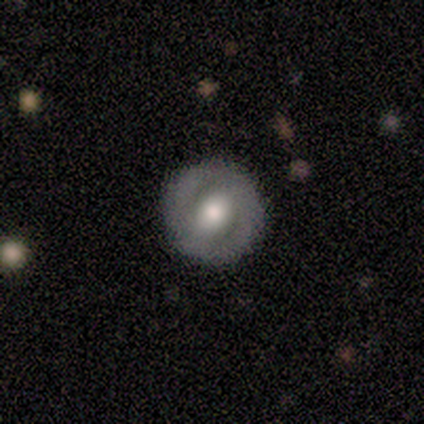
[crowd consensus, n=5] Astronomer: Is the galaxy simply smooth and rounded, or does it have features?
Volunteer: featured or disk — 80%.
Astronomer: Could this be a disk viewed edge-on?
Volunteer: no — 100%.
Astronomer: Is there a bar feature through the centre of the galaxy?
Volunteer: no — 75%.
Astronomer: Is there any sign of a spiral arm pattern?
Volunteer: no — 75%.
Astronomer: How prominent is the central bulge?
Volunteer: large — 50%, tied with moderate at 50%.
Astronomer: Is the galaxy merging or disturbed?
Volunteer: none — 100%.